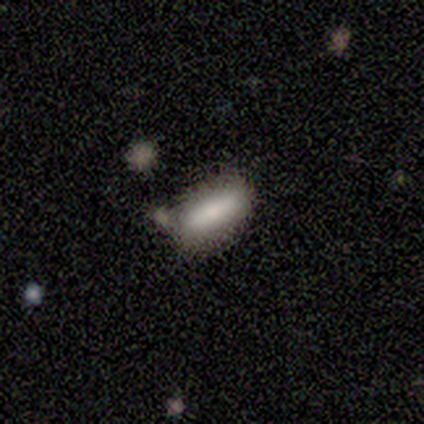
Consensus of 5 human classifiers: A smooth galaxy with no disk features (100%) that is in between round and cigar-shaped (100%). Merging: none (100%).